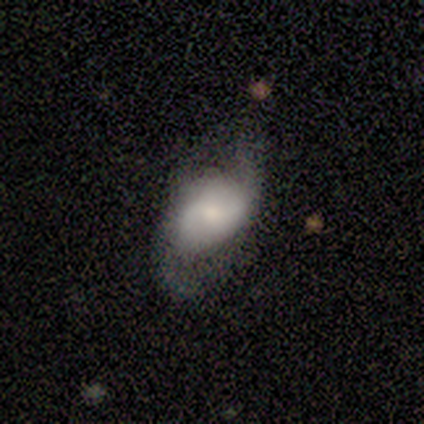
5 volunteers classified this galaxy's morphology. Smooth or featured: featured or disk — 80% (smooth — 20%)
Edge-on disk: no — 75% (yes — 25%)
Bar: no — 67% (weak — 33%)
Spiral arms: yes — 100%
Spiral winding: loose — 100%
Spiral arm count: 2 — 100%
Bulge size: small — 100%
Merging: none — 60% (minor disturbance — 20%)